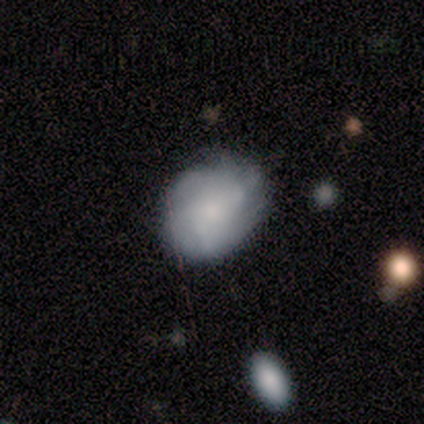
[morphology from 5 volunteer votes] Smooth or featured? 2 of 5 (40%, tied with star or artifact) said smooth. How rounded? 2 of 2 (100%) said round. Merging? 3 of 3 (100%) said none.